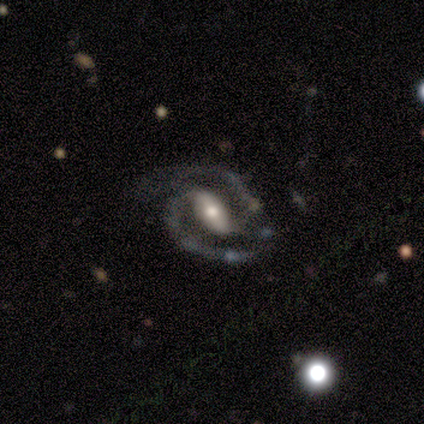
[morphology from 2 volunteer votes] Q: Smooth or featured?
A: featured or disk (100%)
Q: Edge-on disk?
A: no (100%)
Q: Bar?
A: strong (50%); tied with: no (50%)
Q: Spiral arms?
A: yes (100%)
Q: Spiral winding?
A: medium (100%)
Q: Spiral arm count?
A: 2 (100%)
Q: Bulge size?
A: small (100%)
Q: Merging?
A: none (50%); tied with: minor disturbance (50%)